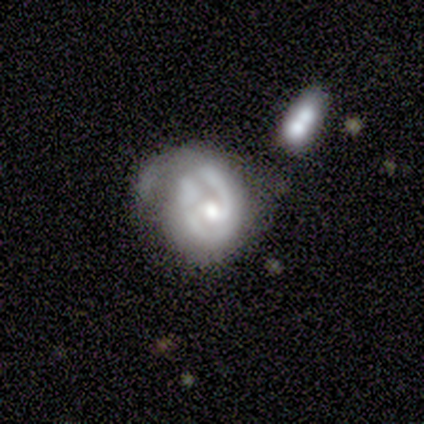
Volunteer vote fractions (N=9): This appears to be a featured or disk galaxy (67%) with a weak bar (83%), 2 (50%) tight (75%) spiral arms (67%) and a moderate central bulge (50%). Merging: minor disturbance (44%).